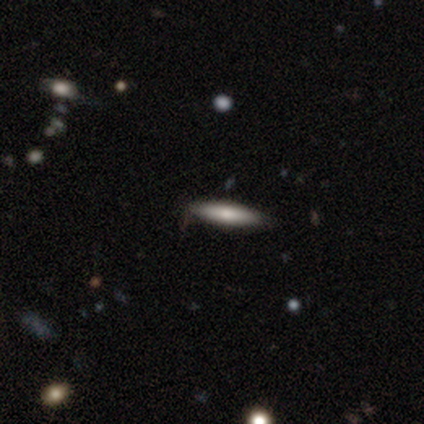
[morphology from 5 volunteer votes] Overall: smooth (60%; featured or disk 40%). How rounded: cigar-shaped (100%). Merging: none (100%).